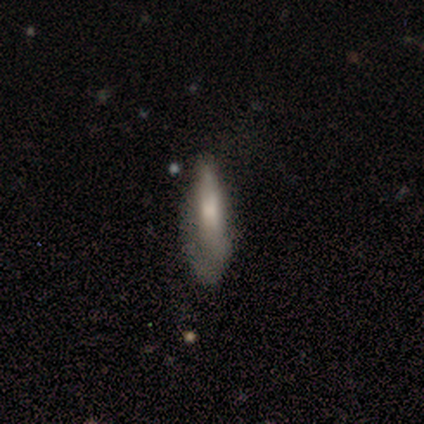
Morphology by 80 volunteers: smooth 66%, featured or disk 31%, star or artifact 2%. Down the decision tree: how rounded — cigar-shaped (55%); merging — minor disturbance (19%).